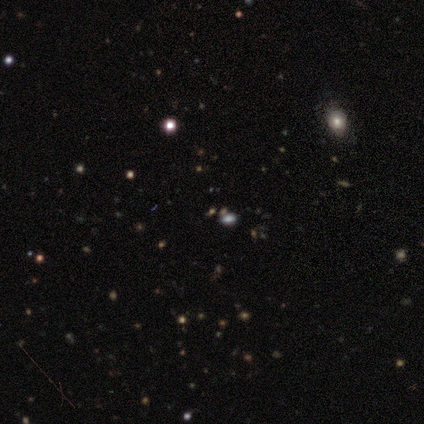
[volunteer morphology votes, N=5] Smooth or featured?
  - star or artifact: 60% *
  - smooth: 20%
  - featured or disk: 20%